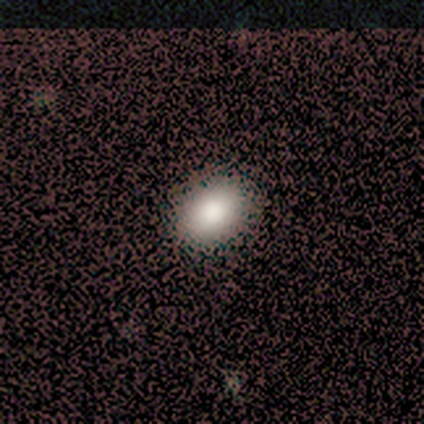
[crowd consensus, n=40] This is clearly a smooth galaxy (90%). How rounded: clearly in between (83%). Merging: possibly none (58%).